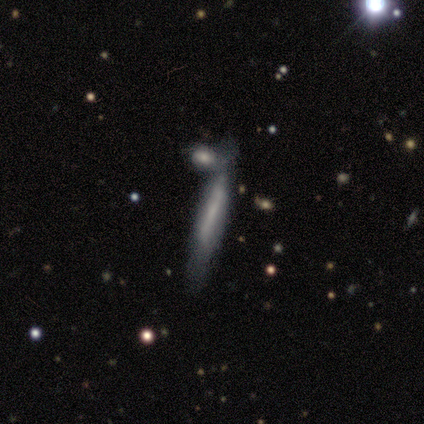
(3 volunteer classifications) Smooth or featured: featured or disk — 67% (smooth — 33%)
Edge-on disk: yes — 100%
Edge-on bulge: none — 100%
Merging: none — 33% (tied with minor disturbance — 33%; merger — 33%)